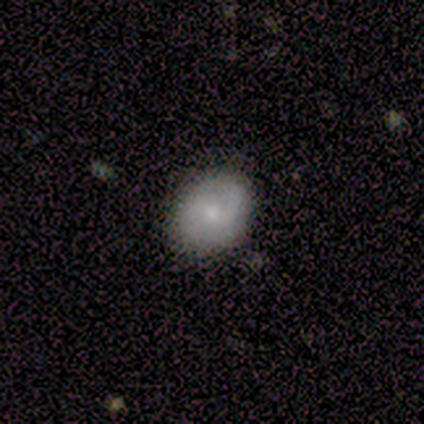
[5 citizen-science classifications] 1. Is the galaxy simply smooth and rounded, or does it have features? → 60% smooth, 40% star or artifact, 0% featured or disk.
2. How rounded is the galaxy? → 67% in between, 33% round, 0% cigar-shaped.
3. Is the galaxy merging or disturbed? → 67% minor disturbance, 33% none, 0% major disturbance, 0% merger.